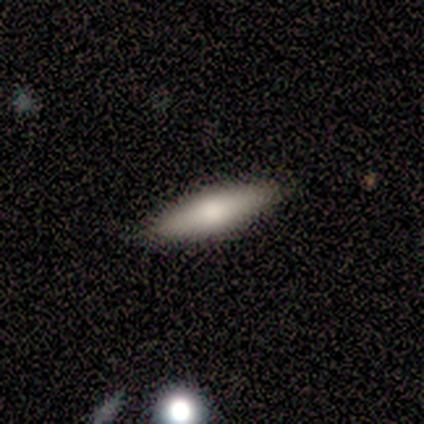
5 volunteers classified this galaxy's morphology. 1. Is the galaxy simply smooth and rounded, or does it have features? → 100% smooth, 0% featured or disk, 0% star or artifact.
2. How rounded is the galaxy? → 80% cigar-shaped, 20% in between, 0% round.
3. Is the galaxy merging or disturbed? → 80% none, 20% minor disturbance, 0% major disturbance, 0% merger.